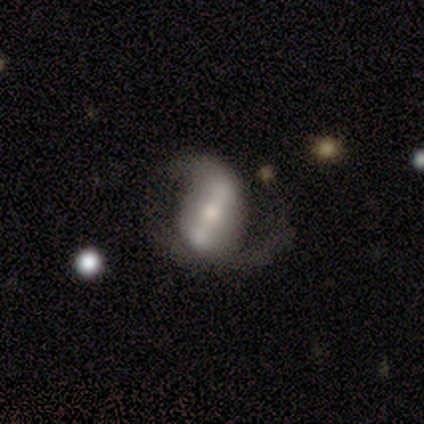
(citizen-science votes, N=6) Smooth or featured: featured or disk — 100%
Edge-on disk: no — 100%
Bar: strong — 33% (tied with weak — 33%; no — 33%)
Spiral arms: yes — 83% (no — 17%)
Spiral winding: medium — 60% (loose — 40%)
Spiral arm count: 2 — 80% (1 — 20%)
Bulge size: moderate — 50% (large — 33%)
Merging: none — 50% (major disturbance — 33%)